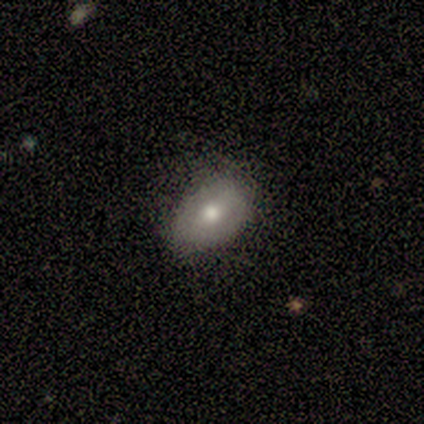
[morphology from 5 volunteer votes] A smooth galaxy with no disk features (60%) that is in between round and cigar-shaped (67%). Merging: none (100%).